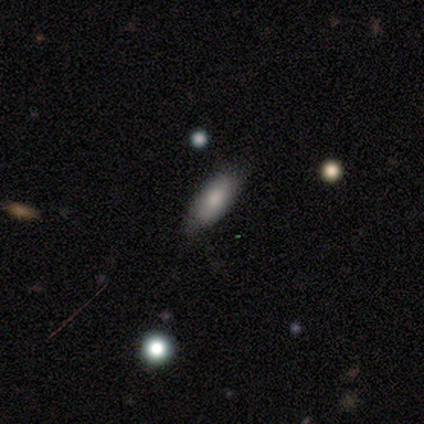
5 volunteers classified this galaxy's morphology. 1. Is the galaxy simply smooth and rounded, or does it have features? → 100% smooth, 0% featured or disk, 0% star or artifact.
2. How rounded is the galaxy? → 80% in between, 20% cigar-shaped, 0% round.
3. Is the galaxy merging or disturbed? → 80% none, 20% major disturbance, 0% minor disturbance, 0% merger.